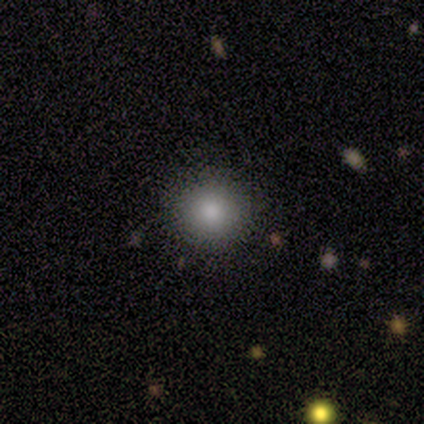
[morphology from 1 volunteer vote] smooth 100%, featured or disk 0%, star or artifact 0%. Down the decision tree: how rounded — round (100%); merging — none (100%).